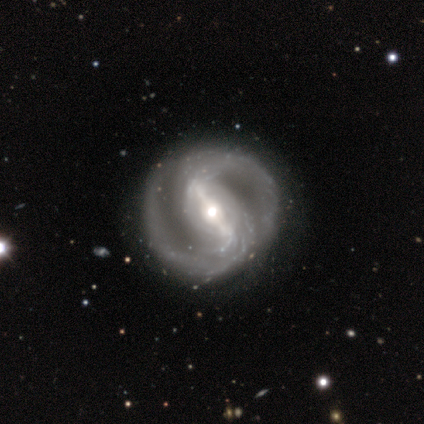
A featured or disk galaxy (100%) with a strong bar (100%), 2 (100%) tight (50%) spiral arms (80%) and a moderate central bulge (100%).

Vote fractions:
- Smooth or featured? featured or disk: 100% / smooth: 0% / star or artifact: 0%
- Edge-on disk? no: 100% / yes: 0%
- Bar? strong: 100% / weak: 0% / no: 0%
- Spiral arms? yes: 80% / no: 20%
- Spiral winding? tight: 50% / medium: 25% / loose: 25%
- Spiral arm count? 2: 100% / 1: 0% / 3: 0% / 4: 0% / more than 4: 0% / can't tell: 0%
- Bulge size? moderate: 100% / dominant: 0% / large: 0% / small: 0% / none: 0%
- Merging? none: 60% / major disturbance: 40% / minor disturbance: 0% / merger: 0%